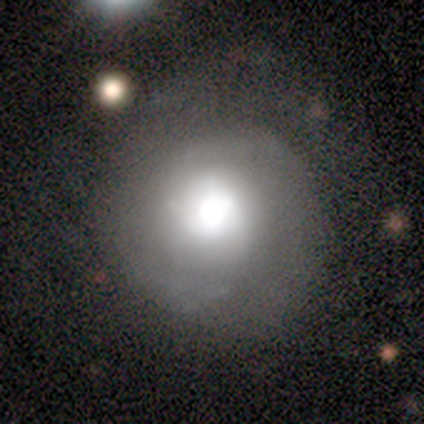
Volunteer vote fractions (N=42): Volunteers were most divided on "spiral arms" (2-way tie): yes: 50%, no: 50%. Remaining: edge-on disk — no (96%); bar — no (91%); spiral winding — tight (64%); spiral arm count — 2 (64%); merging — none (56%); smooth or featured — featured or disk (55%); bulge size — dominant (45%).